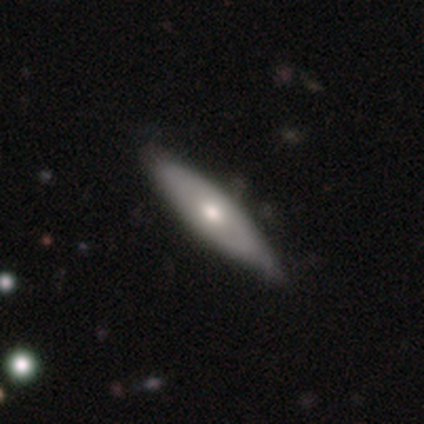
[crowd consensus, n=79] Overall: smooth (56%; featured or disk 42%). How rounded: in between (55%; cigar-shaped 43%). Merging: none (32%; minor disturbance 17%).